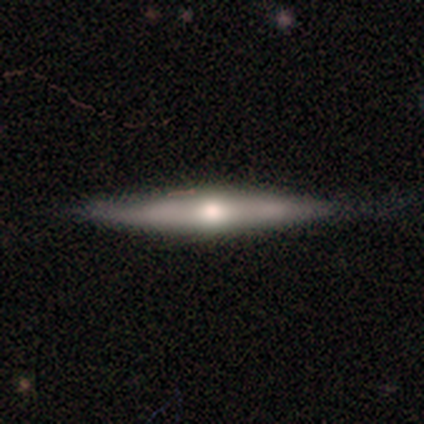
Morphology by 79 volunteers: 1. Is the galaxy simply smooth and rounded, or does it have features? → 66% featured or disk, 27% smooth, 8% star or artifact.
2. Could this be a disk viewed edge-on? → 90% yes, 10% no.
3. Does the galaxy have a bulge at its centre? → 91% rounded, 4% boxy, 4% none.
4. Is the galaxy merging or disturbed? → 77% none, 16% minor disturbance, 4% major disturbance, 3% merger.